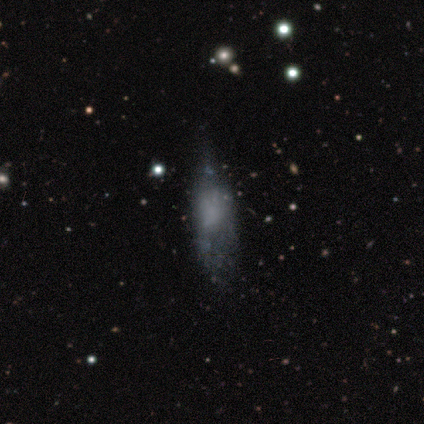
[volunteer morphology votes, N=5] This is likely a smooth galaxy (60%). How rounded: likely in between (67%). Merging: possibly none (50%).